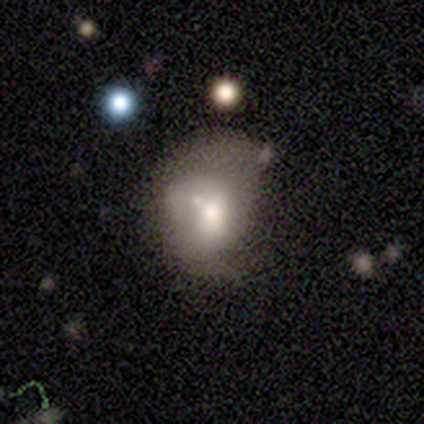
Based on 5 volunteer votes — Overall: smooth (80%). How rounded: in between (75%). Merging: merger (60%; minor disturbance 20%).